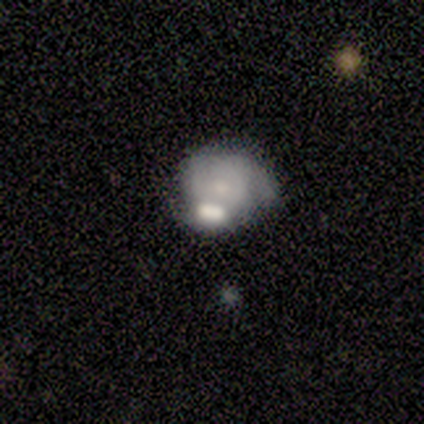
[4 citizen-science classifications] Smooth or featured? 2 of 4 (50%, tied with featured or disk) said smooth. How rounded? 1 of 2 (50%, tied with in between) said round. Merging? 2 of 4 (50%, tied with merger) said minor disturbance.